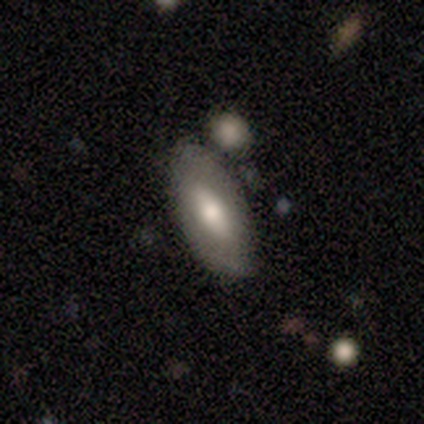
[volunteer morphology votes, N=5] Smooth or featured? featured or disk (60%)
Edge-on disk? no (67%)
Bar? strong (50%, tied with no)
Spiral arms? yes (50%, tied with no)
Spiral winding? tight (100%)
Spiral arm count? more than 4 (100%)
Bulge size? large (50%, tied with moderate)
Merging? none (80%)